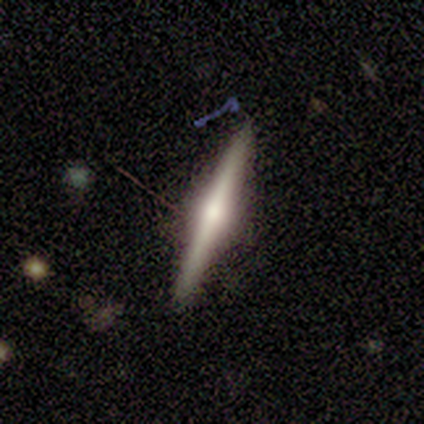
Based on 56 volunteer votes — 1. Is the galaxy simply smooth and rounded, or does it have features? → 73% featured or disk, 25% smooth, 2% star or artifact.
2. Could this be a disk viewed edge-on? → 98% yes, 2% no.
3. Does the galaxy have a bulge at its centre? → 82% rounded, 10% boxy, 8% none.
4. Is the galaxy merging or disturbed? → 84% none, 15% minor disturbance, 2% merger, 0% major disturbance.